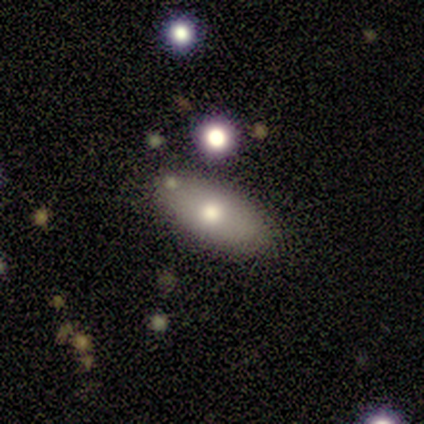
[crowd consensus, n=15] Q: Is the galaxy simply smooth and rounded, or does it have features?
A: smooth — 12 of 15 (80%).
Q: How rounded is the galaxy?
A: in between — 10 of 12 (83%).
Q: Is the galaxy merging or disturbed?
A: none — 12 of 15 (80%).